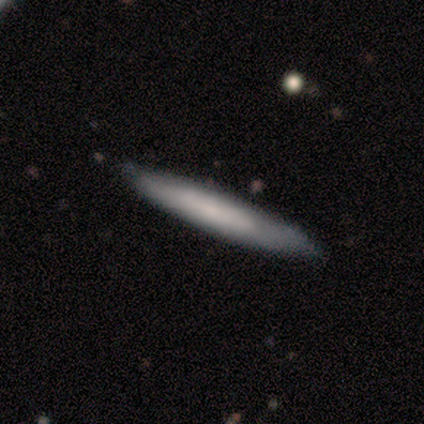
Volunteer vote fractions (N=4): smooth_or_featured: smooth (p=0.50) [tied with: featured or disk p=0.50]
how_rounded: cigar-shaped (p=1.00)
merging: none (p=0.50) [tied with: minor disturbance p=0.50]